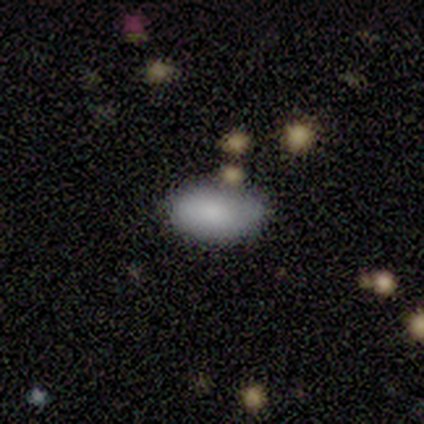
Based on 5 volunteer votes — Smooth or featured? 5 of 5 (100%) said smooth. How rounded? 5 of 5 (100%) said in between. Merging? 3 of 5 (60%) said none.